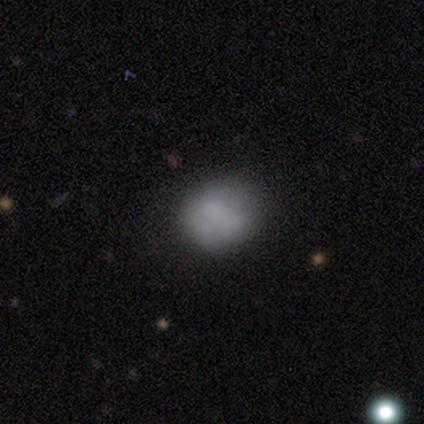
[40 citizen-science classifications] A smooth galaxy with no disk features (65%) that is round (69%). Merging: none (49%).